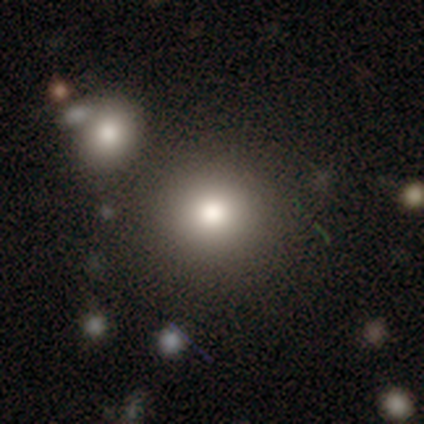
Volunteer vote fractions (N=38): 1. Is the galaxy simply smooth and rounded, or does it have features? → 76% smooth, 13% star or artifact, 11% featured or disk.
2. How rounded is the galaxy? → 97% round, 3% in between, 0% cigar-shaped.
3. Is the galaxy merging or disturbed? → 82% none, 12% minor disturbance, 6% merger, 0% major disturbance.